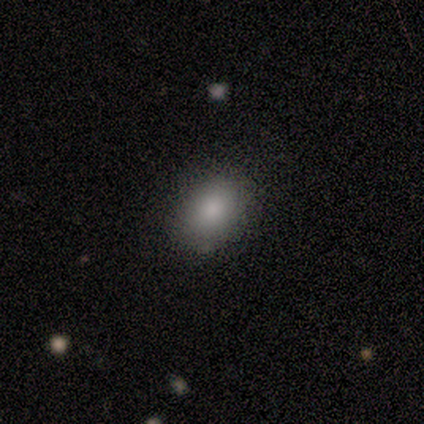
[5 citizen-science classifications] smooth-or-featured: smooth: 80% | featured or disk: 20% | star or artifact: 0%
  how-rounded: in between: 75% | round: 25% | cigar-shaped: 0%
  merging: none: 100% | minor disturbance: 0% | major disturbance: 0% | merger: 0%